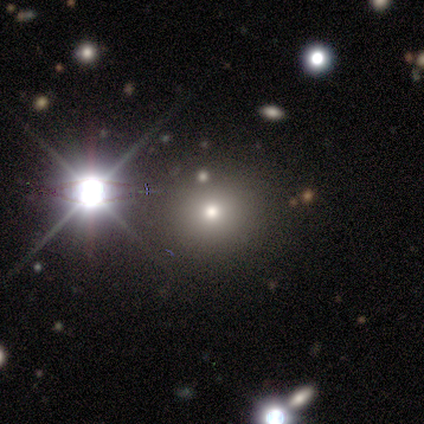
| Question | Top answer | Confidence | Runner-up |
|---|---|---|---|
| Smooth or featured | smooth | 100% | — |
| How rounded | round | 100% | — |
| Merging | none | 100% | — |